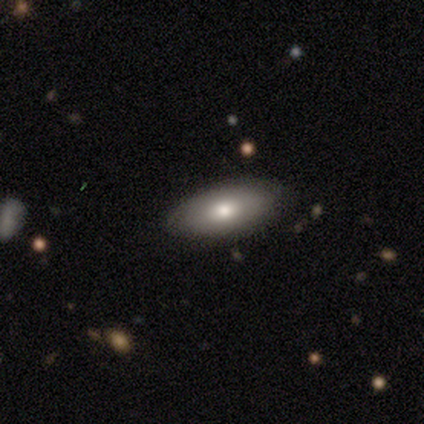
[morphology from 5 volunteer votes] A smooth galaxy with no disk features (60%) that is in between round and cigar-shaped (100%). Merging: none (80%).